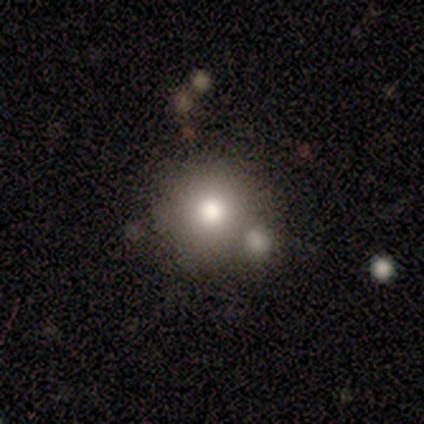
This is clearly a smooth galaxy (100%). How rounded: clearly round (100%). Merging: likely none (75%).